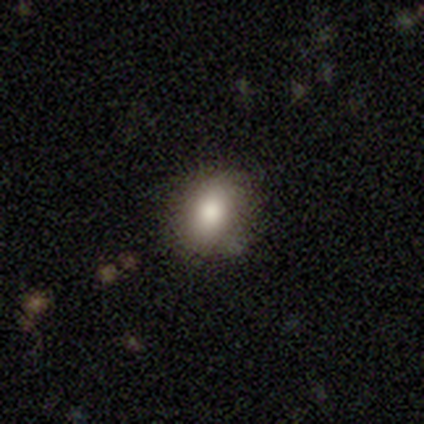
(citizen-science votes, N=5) Q: Smooth or featured?
A: smooth (80%); runner-up: star or artifact (20%)
Q: How rounded?
A: round (50%); tied with: in between (50%)
Q: Merging?
A: none (75%); runner-up: merger (25%)